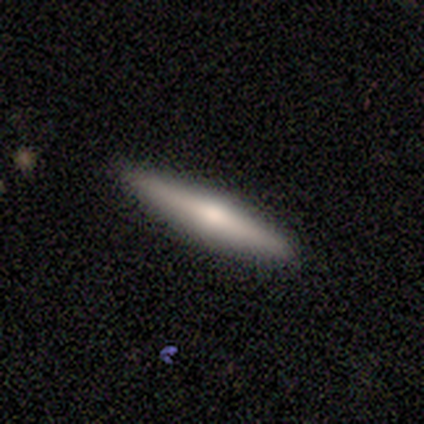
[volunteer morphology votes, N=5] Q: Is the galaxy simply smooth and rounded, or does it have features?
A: featured or disk — 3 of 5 (60%).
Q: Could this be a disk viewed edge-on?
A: yes — 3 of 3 (100%).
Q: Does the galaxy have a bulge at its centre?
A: rounded — 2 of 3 (67%).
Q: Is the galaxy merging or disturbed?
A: none — 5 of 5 (100%).